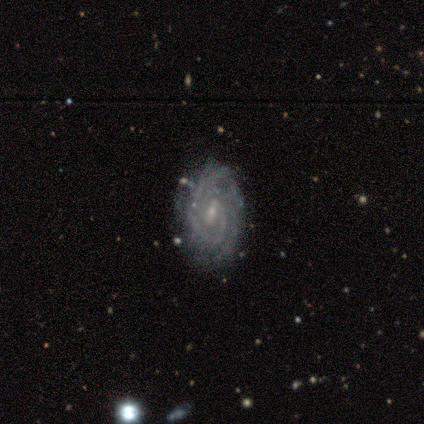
Smooth or featured: featured or disk — 100%
Edge-on disk: no — 100%
Bar: weak — 80% (no — 20%)
Spiral arms: yes — 100%
Spiral winding: tight — 60% (medium — 40%)
Spiral arm count: 2 — 60% (3 — 20%)
Bulge size: small — 100%
Merging: none — 80% (merger — 20%)